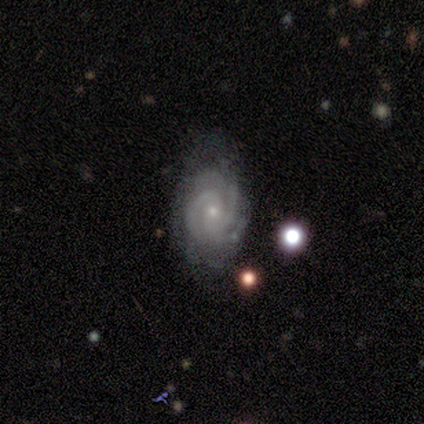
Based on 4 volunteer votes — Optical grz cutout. It shows a featured or disk galaxy (100%) with a weak bar (50%, tied with no), 2 (25%, tied with 3, 4 and more than 4) tight (75%) spiral arms (100%) and a small central bulge (100%). Merging: none (50%, tied with minor disturbance).